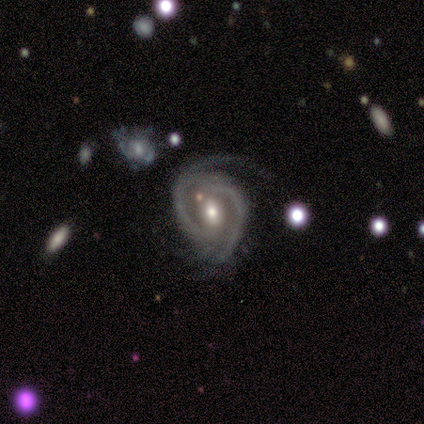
Smooth or featured?
  - featured or disk: 100% *
  - smooth: 0%
  - star or artifact: 0%
Edge-on disk?
  - no: 100% *
  - yes: 0%
Bar?
  - no: 50% *
  - weak: 43%
  - strong: 7%
Spiral arms?
  - yes: 86% *
  - no: 14%
Spiral winding?
  - tight: 58% *
  - medium: 42%
  - loose: 0%
Spiral arm count?
  - 2: 83% *
  - 1: 8%
  - 4: 8%
  - 3: 0%
  - more than 4: 0%
  - can't tell: 0%
Bulge size?
  - moderate: 79% *
  - small: 14%
  - large: 7%
  - dominant: 0%
  - none: 0%
Merging?
  - none: 50% *
  - minor disturbance: 29%
  - major disturbance: 14%
  - merger: 7%